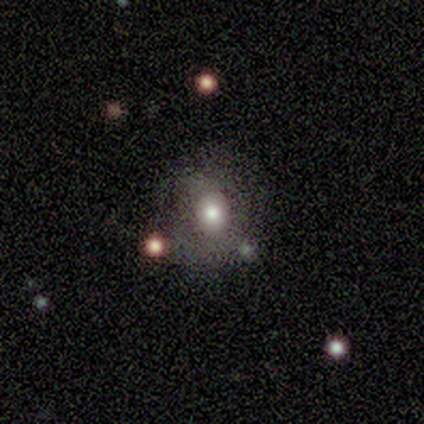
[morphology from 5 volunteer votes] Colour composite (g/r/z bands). It shows a smooth galaxy with no disk features (60%) that is round (100%). Merging: none (100%).